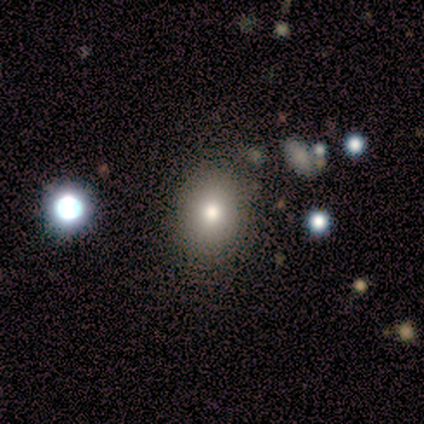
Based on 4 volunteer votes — This is possibly a star or artifact rather than a galaxy (50%).